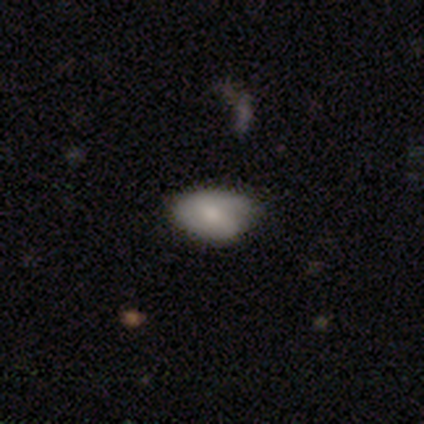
Smooth or featured: smooth — 40% (tied with featured or disk — 40%)
How rounded: in between — 100%
Merging: none — 50% (minor disturbance — 25%)